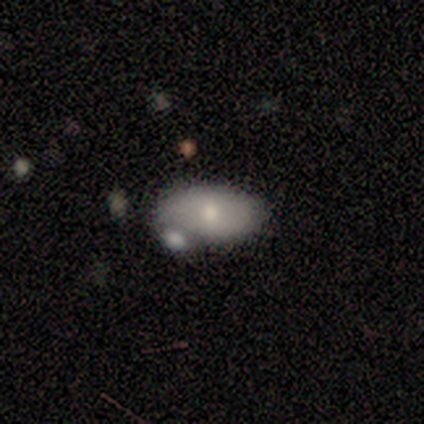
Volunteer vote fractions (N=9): Smooth or featured? 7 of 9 (78%) said smooth. How rounded? 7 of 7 (100%) said in between. Merging? 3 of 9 (33%, tied with minor disturbance) said none.